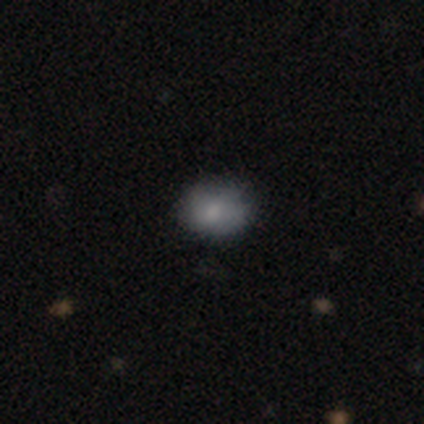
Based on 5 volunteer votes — This is likely a featured or disk galaxy (60%). It is clearly not viewed edge-on (100%). Bar: clearly no (100%). Spiral arm pattern: likely yes (67%). Spiral arm count: possibly 4 (50%, tied with can't tell). Spiral winding: clearly tight (100%). Central bulge: likely moderate (67%). Merging: possibly none (50%).